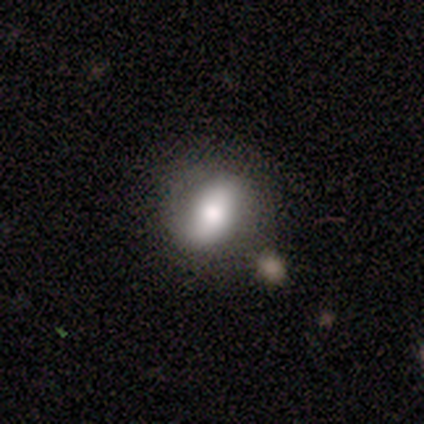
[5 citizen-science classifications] A smooth galaxy with no disk features (80%) that is round (50%, tied with in between). Merging: none (80%).